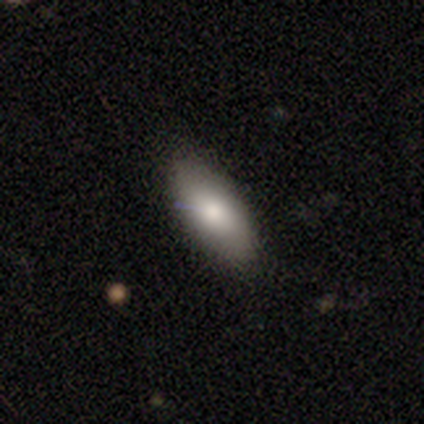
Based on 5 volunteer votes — smooth-or-featured: smooth: 60% | featured or disk: 20% | star or artifact: 20%
  how-rounded: in between: 100% | round: 0% | cigar-shaped: 0%
  merging: none: 100% | minor disturbance: 0% | major disturbance: 0% | merger: 0%